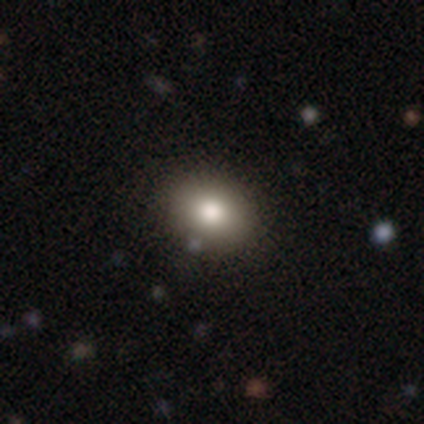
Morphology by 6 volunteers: Smooth or featured? smooth (100%)
How rounded? in between (100%)
Merging? none (83%)